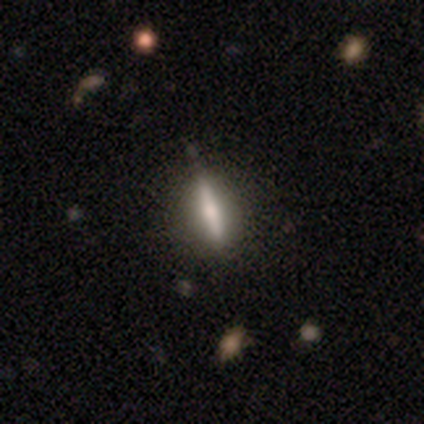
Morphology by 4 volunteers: smooth-or-featured: featured or disk: 75% | smooth: 25% | star or artifact: 0%
  disk-edge-on: yes: 67% | no: 33%
    edge-on-bulge: none: 50% (tied) | rounded: 50% (tied) | boxy: 0%
  merging: none: 50% (tied) | minor disturbance: 50% (tied) | major disturbance: 0% | merger: 0%